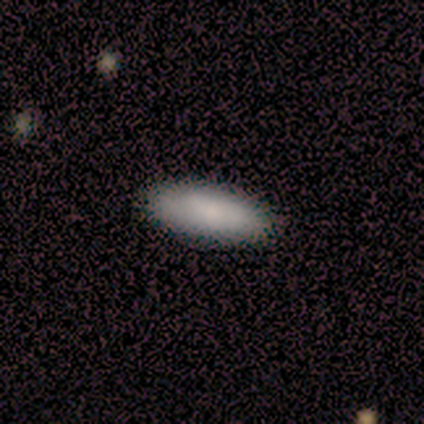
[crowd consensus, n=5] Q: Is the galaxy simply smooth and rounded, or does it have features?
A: smooth — 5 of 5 (100%).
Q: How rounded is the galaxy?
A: in between — 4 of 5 (80%).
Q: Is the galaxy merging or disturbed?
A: none — 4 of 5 (80%).